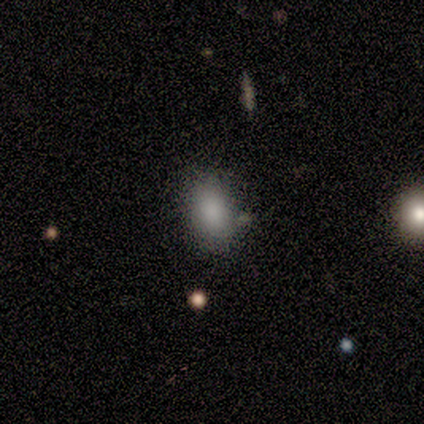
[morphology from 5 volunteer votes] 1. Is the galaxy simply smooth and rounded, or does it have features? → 100% smooth, 0% featured or disk, 0% star or artifact.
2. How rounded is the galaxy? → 100% in between, 0% round, 0% cigar-shaped.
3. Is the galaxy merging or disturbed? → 80% none, 20% minor disturbance, 0% major disturbance, 0% merger.